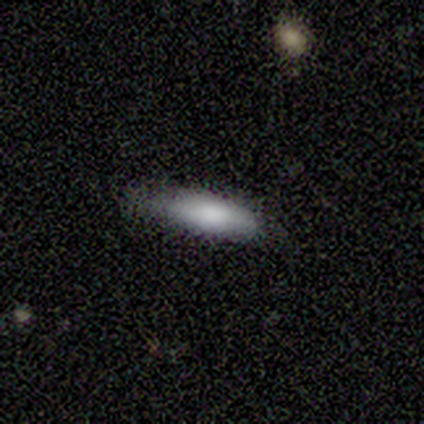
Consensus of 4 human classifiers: smooth 75%, featured or disk 25%, star or artifact 0%. Down the decision tree: how rounded — in between (67%); merging — none (75%).